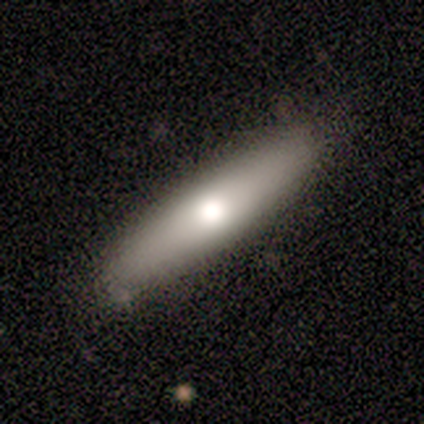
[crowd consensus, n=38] Smooth or featured? 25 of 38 (66%) said smooth. How rounded? 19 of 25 (76%) said cigar-shaped. Merging? 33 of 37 (89%) said none.